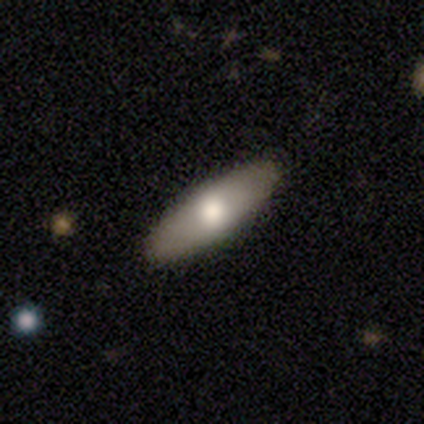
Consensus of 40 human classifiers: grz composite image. It shows a smooth galaxy with no disk features (70%) that is in between round and cigar-shaped (50%, tied with cigar-shaped). Merging: none (95%).